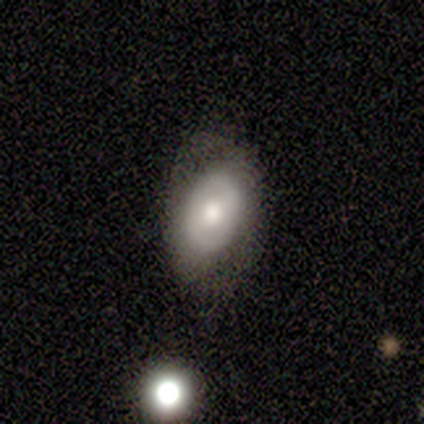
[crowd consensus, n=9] Q: Smooth or featured?
A: smooth (56%); runner-up: featured or disk (44%)
Q: How rounded?
A: in between (100%)
Q: Merging?
A: none (67%); runner-up: minor disturbance (22%)